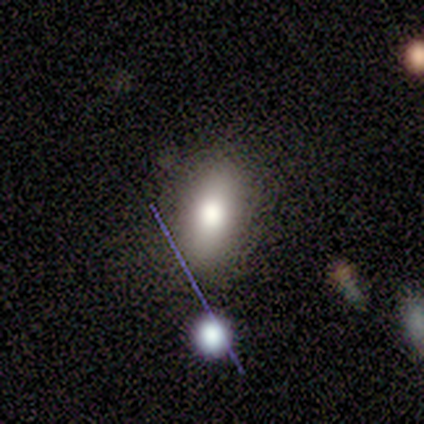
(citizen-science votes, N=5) smooth_or_featured: smooth (p=0.80) [alt: star or artifact p=0.20]
how_rounded: in between (p=0.75) [alt: round p=0.25]
merging: none (p=0.75) [alt: merger p=0.25]